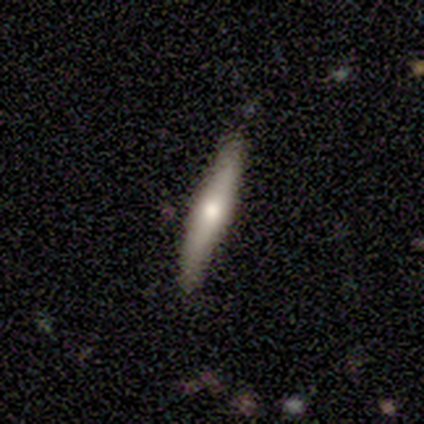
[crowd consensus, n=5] Volunteers were most divided on "smooth or featured": featured or disk: 60%, smooth: 40%, star or artifact: 0%. More confident: bar — no (100%); spiral arms — no (100%); bulge size — moderate (100%); merging — none (100%); edge-on disk — no (67%).